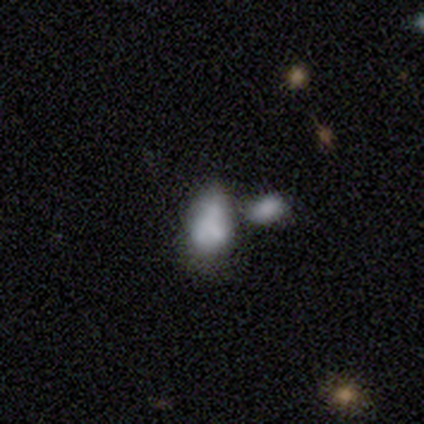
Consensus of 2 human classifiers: smooth-or-featured: featured or disk: 50% (tied) | star or artifact: 50% (tied) | smooth: 0%
  disk-edge-on: no: 100% | yes: 0%
    bar: no: 100% | strong: 0% | weak: 0%
    has-spiral-arms: no: 100% | yes: 0%
    bulge-size: moderate: 100% | dominant: 0% | large: 0% | small: 0% | none: 0%
  merging: none: 100% | minor disturbance: 0% | major disturbance: 0% | merger: 0%